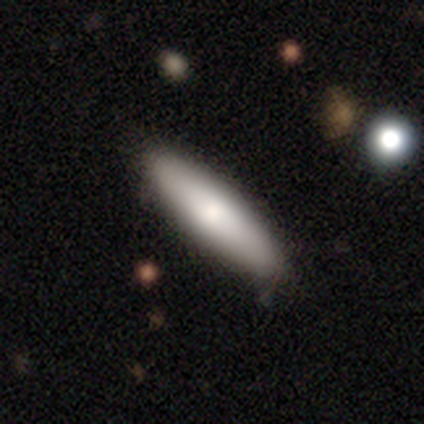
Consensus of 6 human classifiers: Overall: smooth (100%). How rounded: cigar-shaped (67%; in between 33%). Merging: none (100%).